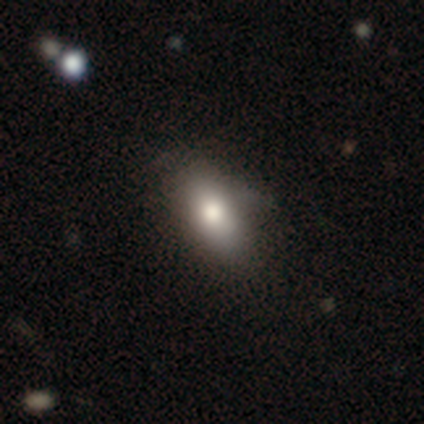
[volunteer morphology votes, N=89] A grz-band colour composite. It shows a smooth galaxy with no disk features (84%) that is in between round and cigar-shaped (80%). Merging: none (70%).